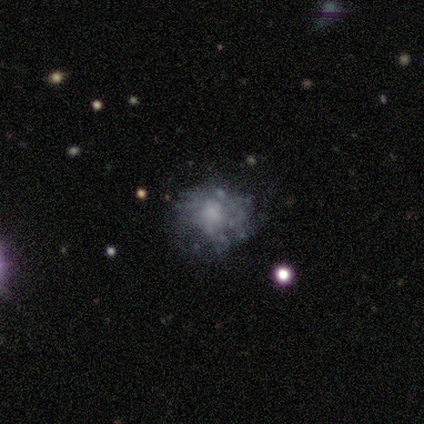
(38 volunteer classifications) Smooth or featured?
  - featured or disk: 76% *
  - smooth: 18%
  - star or artifact: 5%
Edge-on disk?
  - no: 100% *
  - yes: 0%
Bar?
  - no: 83% *
  - weak: 17%
  - strong: 0%
Spiral arms?
  - no: 83% *
  - yes: 17%
Bulge size?
  - none: 34% *
  - small: 31%
  - moderate: 28%
  - large: 7%
  - dominant: 0%
Merging?
  - none: 64% *
  - minor disturbance: 31%
  - major disturbance: 6%
  - merger: 0%